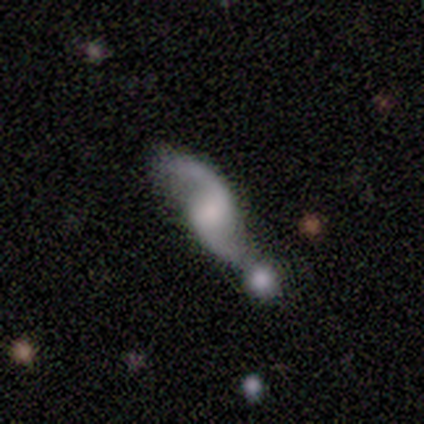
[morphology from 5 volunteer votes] Overall: featured or disk (80%). Edge-on disk: no (100%). Bar: no (50%; strong 25%). Spiral arms: yes (100%). Spiral arm count: 2 (100%). Spiral winding: loose (100%). Bulge size: large (25%, tied with moderate, small and none). Merging: none (40%, tied with merger).